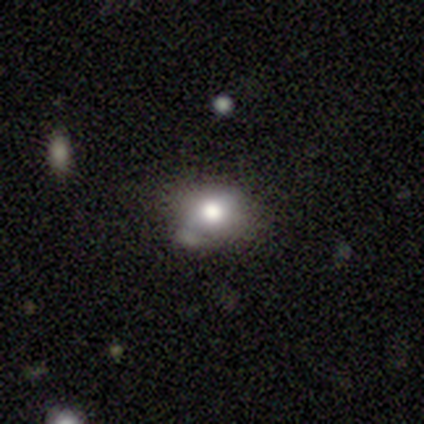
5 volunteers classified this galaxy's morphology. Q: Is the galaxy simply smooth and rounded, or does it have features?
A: smooth — 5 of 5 (100%).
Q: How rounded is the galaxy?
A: round — 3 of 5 (60%).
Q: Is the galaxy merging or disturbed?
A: none — 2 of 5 (40%, tied with merger).